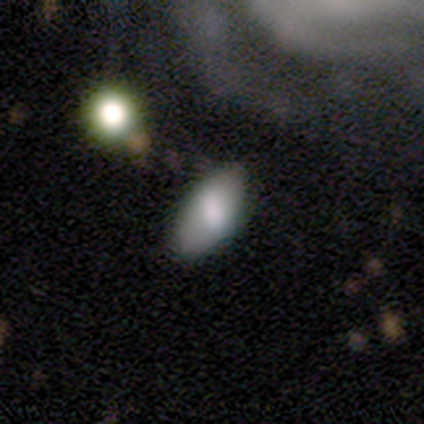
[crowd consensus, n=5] A smooth galaxy with no disk features (60%) that is in between round and cigar-shaped (100%). Merging: none (100%).